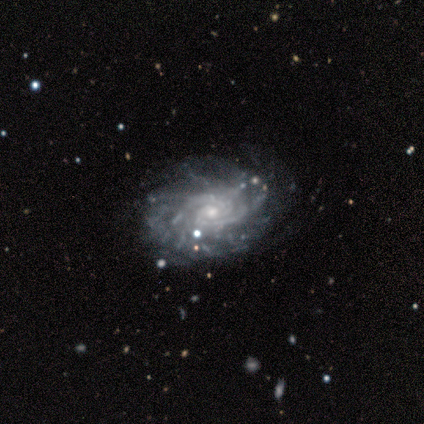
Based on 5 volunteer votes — smooth-or-featured: featured or disk: 100% | smooth: 0% | star or artifact: 0%
  disk-edge-on: no: 100% | yes: 0%
    bar: no: 80% | weak: 20% | strong: 0%
    has-spiral-arms: yes: 100% | no: 0%
      spiral-winding: tight: 80% | medium: 20% | loose: 0%
      spiral-arm-count: 2: 40% (tied) | can't tell: 40% (tied) | more than 4: 20% | 1: 0% | 3: 0% | 4: 0%
    bulge-size: small: 80% | moderate: 20% | dominant: 0% | large: 0% | none: 0%
  merging: none: 80% | major disturbance: 20% | minor disturbance: 0% | merger: 0%